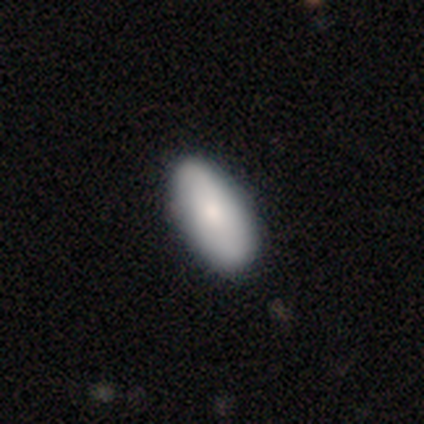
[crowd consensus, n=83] A smooth galaxy with no disk features (82%) that is in between round and cigar-shaped (91%). Merging: none (82%).